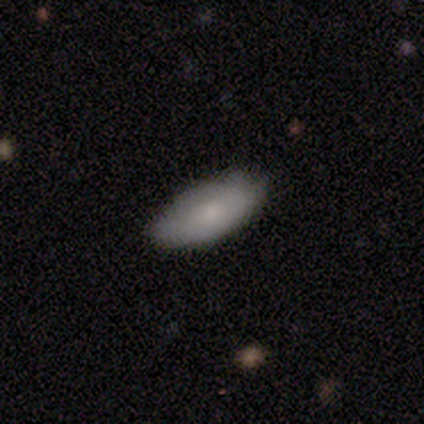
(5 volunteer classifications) Volunteers were most divided on "how rounded": in between: 80%, cigar-shaped: 20%, round: 0%. More confident: smooth or featured — smooth (100%); merging — none (80%).